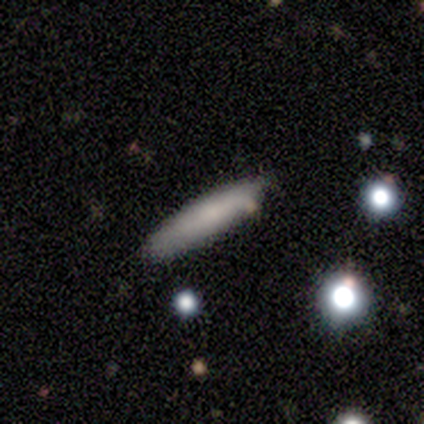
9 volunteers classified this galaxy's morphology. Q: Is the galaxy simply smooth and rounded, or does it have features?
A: smooth — 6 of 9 (67%).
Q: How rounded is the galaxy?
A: cigar-shaped — 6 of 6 (100%).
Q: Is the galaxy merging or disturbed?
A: none — 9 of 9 (100%).